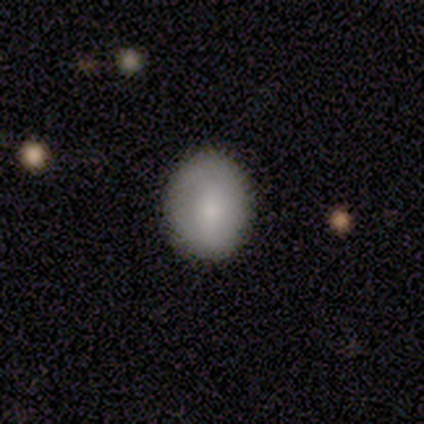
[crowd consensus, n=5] This is clearly a smooth galaxy (100%). How rounded: likely round (60%). Merging: clearly none (100%).